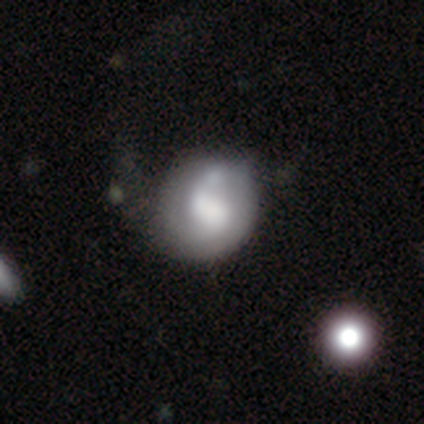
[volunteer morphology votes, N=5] smooth-or-featured: featured or disk: 80% | star or artifact: 20% | smooth: 0%
  disk-edge-on: no: 100% | yes: 0%
    bar: no: 75% | weak: 25% | strong: 0%
    has-spiral-arms: yes: 75% | no: 25%
      spiral-winding: medium: 67% | tight: 33% | loose: 0%
      spiral-arm-count: can't tell: 67% | 1: 33% | 2: 0% | 3: 0% | 4: 0% | more than 4: 0%
    bulge-size: moderate: 50% | large: 25% | none: 25% | dominant: 0% | small: 0%
  merging: none: 50% (tied) | major disturbance: 50% (tied) | minor disturbance: 0% | merger: 0%